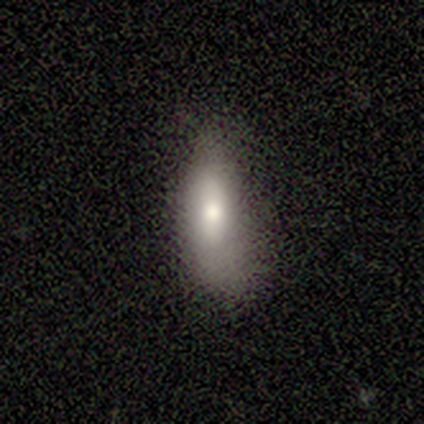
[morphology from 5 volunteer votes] Smooth or featured?
  - smooth: 100% *
  - featured or disk: 0%
  - star or artifact: 0%
How rounded?
  - in between: 80% *
  - cigar-shaped: 20%
  - round: 0%
Merging?
  - none: 80% *
  - major disturbance: 20%
  - minor disturbance: 0%
  - merger: 0%